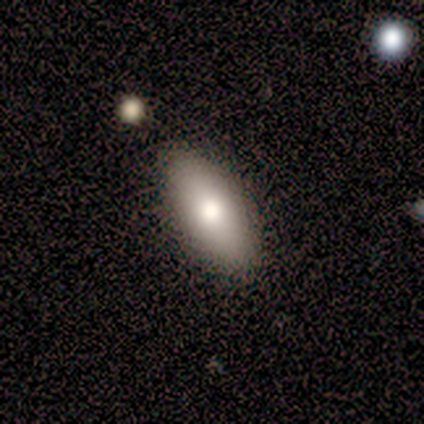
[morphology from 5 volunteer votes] Volunteers were most divided on "merging": none: 75%, minor disturbance: 25%, major disturbance: 0%, merger: 0%. More confident: how rounded — in between (100%); smooth or featured — smooth (80%).